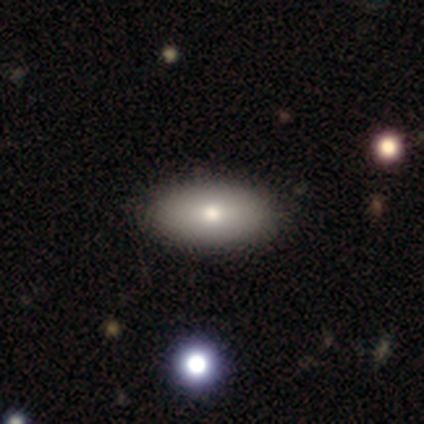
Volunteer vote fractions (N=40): smooth 82%, featured or disk 10%, star or artifact 8%. Down the decision tree: how rounded — in between (100%); merging — none (59%).